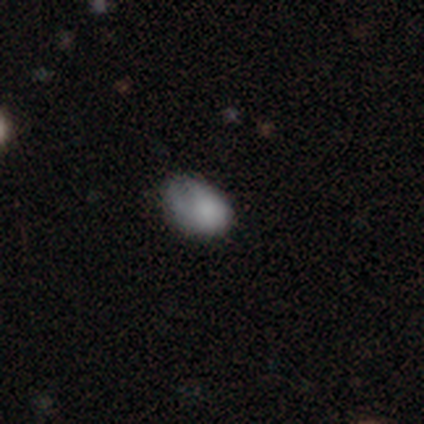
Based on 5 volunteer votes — smooth 80%, star or artifact 20%, featured or disk 0%. Down the decision tree: how rounded — in between (100%); merging — none (50%, tied with minor disturbance).